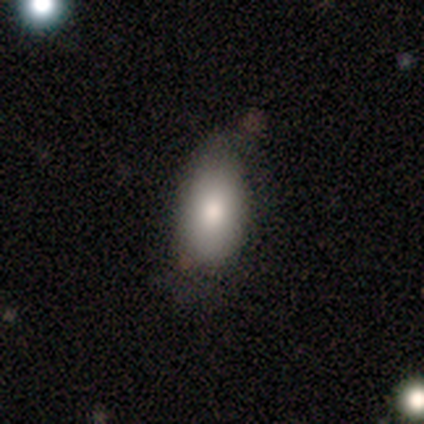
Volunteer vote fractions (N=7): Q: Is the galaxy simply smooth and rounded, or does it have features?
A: smooth — 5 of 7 (71%).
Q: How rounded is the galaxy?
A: in between — 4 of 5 (80%).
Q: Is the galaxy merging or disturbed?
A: none — 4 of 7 (57%).